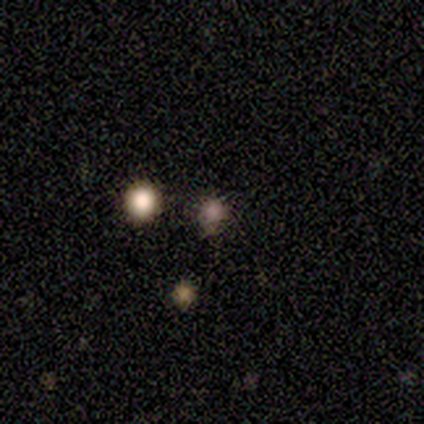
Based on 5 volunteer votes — Volunteers were most divided on "merging": none: 60%, minor disturbance: 20%, merger: 20%, major disturbance: 0%. More confident: smooth or featured — smooth (100%); how rounded — round (100%).